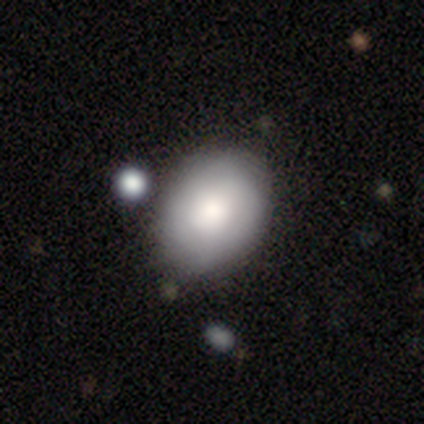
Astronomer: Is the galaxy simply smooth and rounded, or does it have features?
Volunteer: smooth — 75%.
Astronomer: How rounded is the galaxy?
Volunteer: round — 67%.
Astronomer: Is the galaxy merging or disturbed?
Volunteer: none — 100%.